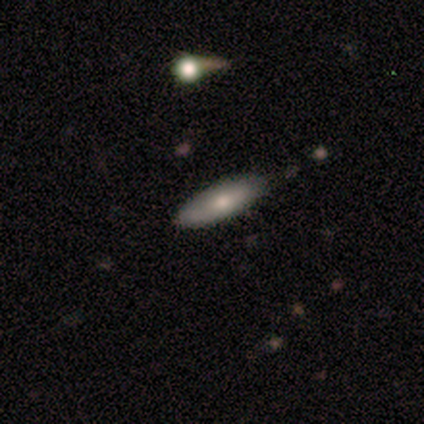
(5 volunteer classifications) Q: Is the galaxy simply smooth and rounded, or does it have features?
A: smooth — 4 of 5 (80%).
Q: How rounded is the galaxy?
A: cigar-shaped — 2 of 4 (50%).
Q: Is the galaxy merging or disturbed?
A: none — 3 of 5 (60%).